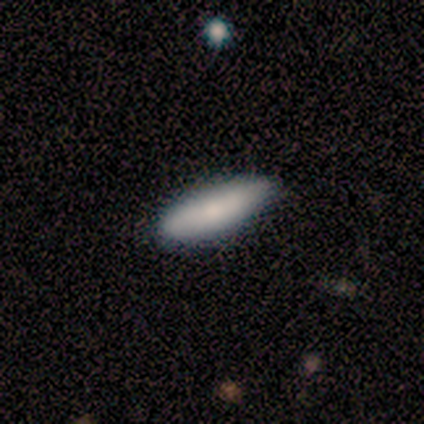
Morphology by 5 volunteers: Smooth or featured? smooth (100%)
How rounded? in between (100%)
Merging? none (80%)